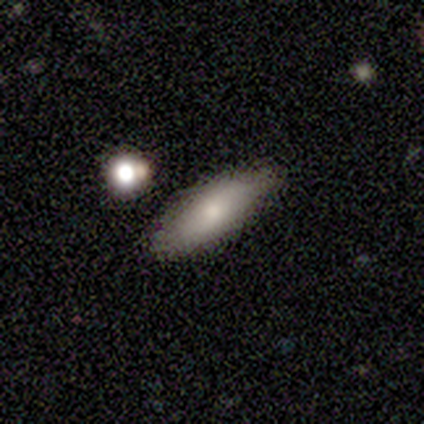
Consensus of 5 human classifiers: Smooth or featured? 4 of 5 (80%) said smooth. How rounded? 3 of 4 (75%) said in between. Merging? 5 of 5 (100%) said none.